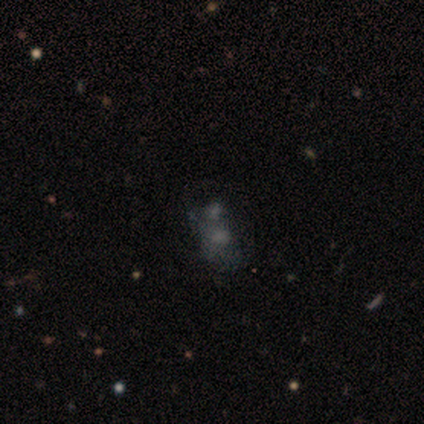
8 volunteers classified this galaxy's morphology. type=smooth (50%); roundness=in between (75%); merging=none (29%, tied with major disturbance and merger).